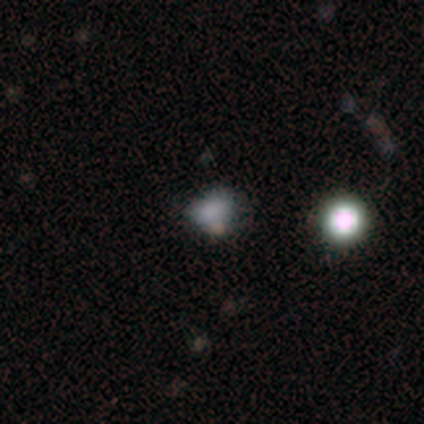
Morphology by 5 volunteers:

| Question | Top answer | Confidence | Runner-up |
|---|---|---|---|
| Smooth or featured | smooth | 60% | featured or disk (20%) |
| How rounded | round | 67% | in between (33%) |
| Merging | minor disturbance | 50% | none (25%) |